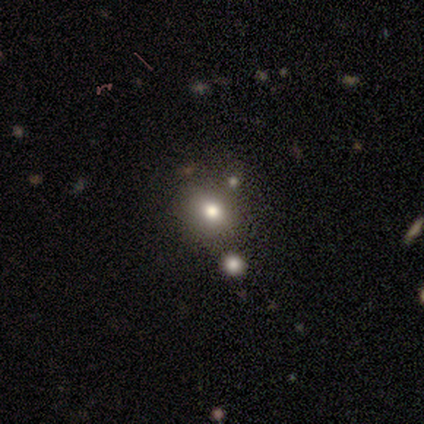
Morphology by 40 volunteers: This is possibly a smooth galaxy (55%). How rounded: likely round (73%). Merging: likely none (68%).